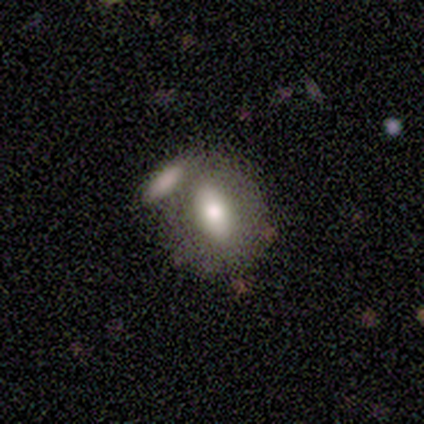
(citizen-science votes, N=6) A smooth galaxy with no disk features (50%, tied with featured or disk) that is in between round and cigar-shaped (100%). Merging: merger (83%).